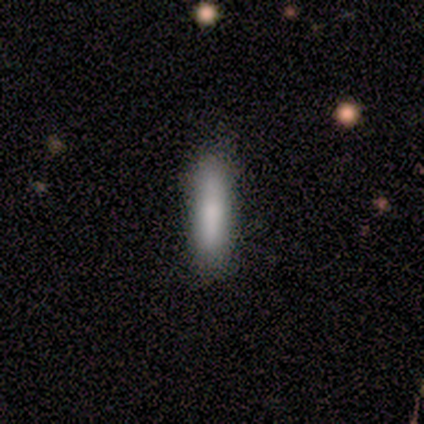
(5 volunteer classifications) smooth-or-featured: smooth: 100% | featured or disk: 0% | star or artifact: 0%
  how-rounded: cigar-shaped: 80% | in between: 20% | round: 0%
  merging: none: 100% | minor disturbance: 0% | major disturbance: 0% | merger: 0%